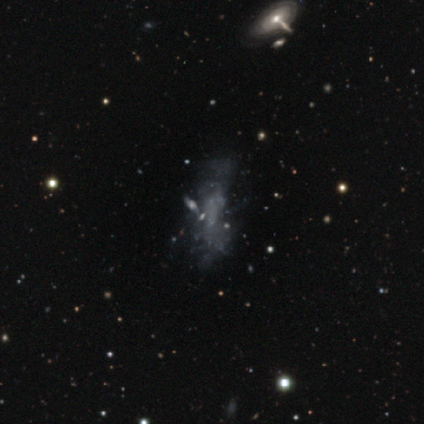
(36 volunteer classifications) This appears to be a featured or disk galaxy (56%) with no bar (95%), no spiral arms (100%) and no central bulge (90%). Merging: none (34%, tied with major disturbance).